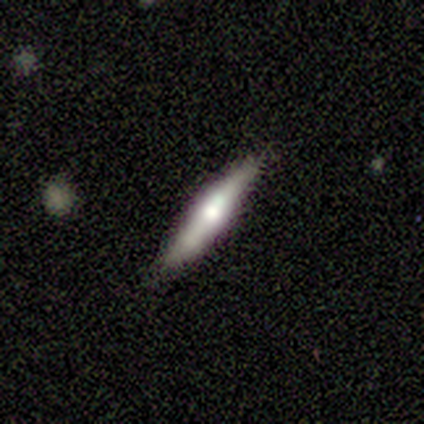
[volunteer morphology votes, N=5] Smooth or featured: featured or disk — 80% (smooth — 20%)
Edge-on disk: yes — 100%
Edge-on bulge: rounded — 100%
Merging: none — 80% (minor disturbance — 20%)